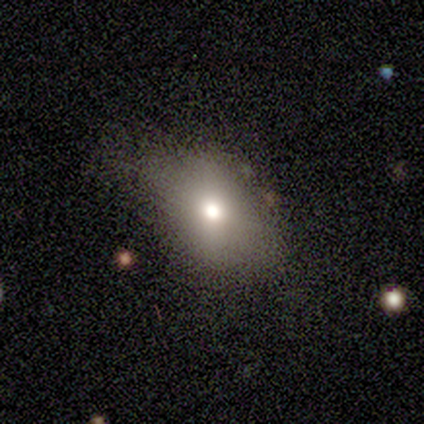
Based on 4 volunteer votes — Smooth or featured?
  - smooth: 50% *
  - featured or disk: 25%
  - star or artifact: 25%
How rounded?
  - in between: 50% * (tied)
  - cigar-shaped: 50% * (tied)
  - round: 0%
Merging?
  - none: 100% *
  - minor disturbance: 0%
  - major disturbance: 0%
  - merger: 0%